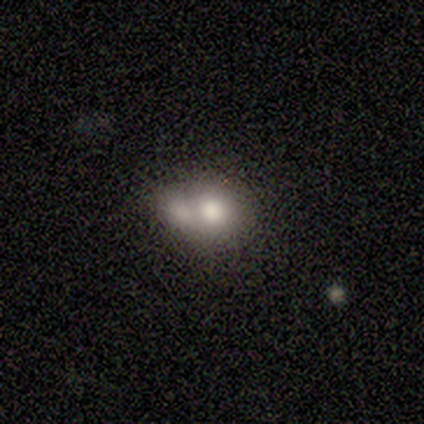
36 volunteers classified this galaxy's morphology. A smooth galaxy with no disk features (83%) that is round (53%).

Vote fractions:
- Smooth or featured? smooth: 83% / featured or disk: 17% / star or artifact: 0%
- How rounded? round: 53% / in between: 47% / cigar-shaped: 0%
- Merging? merger: 69% / none: 19% / minor disturbance: 8% / major disturbance: 3%